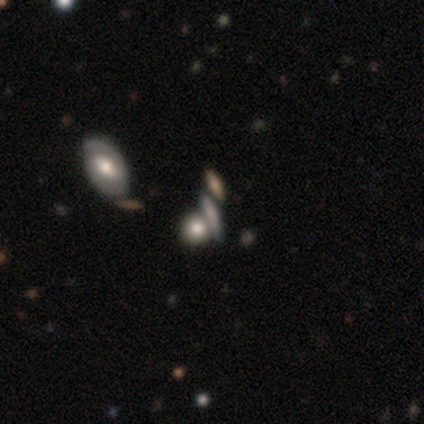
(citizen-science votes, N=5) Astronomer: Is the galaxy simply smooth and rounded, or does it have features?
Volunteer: featured or disk — 60%.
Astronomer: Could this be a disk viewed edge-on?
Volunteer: no — 67%.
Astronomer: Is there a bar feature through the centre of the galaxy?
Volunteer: weak — 50%, tied with no at 50%.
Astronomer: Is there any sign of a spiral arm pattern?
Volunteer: no — 100%.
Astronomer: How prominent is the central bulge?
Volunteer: moderate — 50%, tied with small at 50%.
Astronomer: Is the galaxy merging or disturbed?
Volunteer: none — 50%, tied with minor disturbance at 50%.